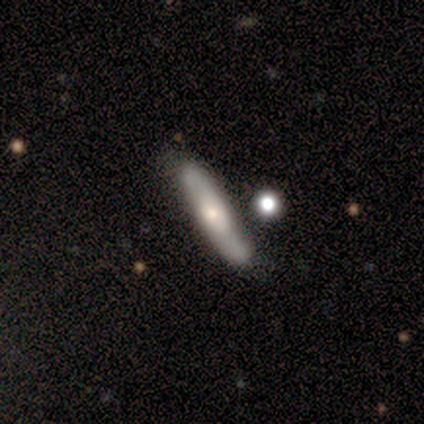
Smooth or featured? 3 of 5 (60%) said smooth. How rounded? 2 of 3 (67%) said cigar-shaped. Merging? 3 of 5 (60%) said none.